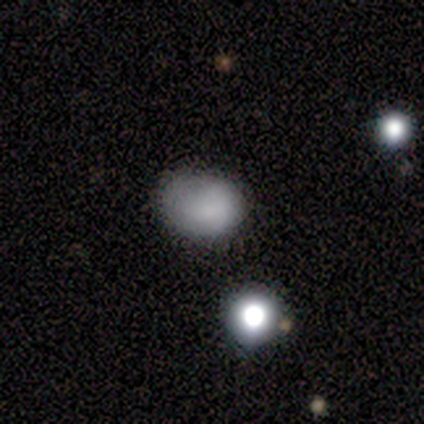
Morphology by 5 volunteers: Q: Smooth or featured?
A: smooth (60%); runner-up: star or artifact (40%)
Q: How rounded?
A: round (67%); runner-up: in between (33%)
Q: Merging?
A: none (100%)